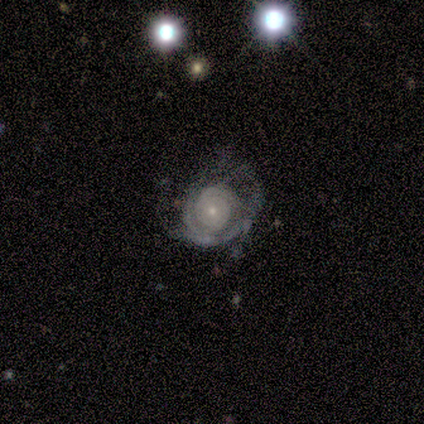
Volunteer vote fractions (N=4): smooth_or_featured: featured or disk (p=0.75) [alt: smooth p=0.25]
disk_edge_on: no (p=1.00)
bar: no (p=0.67) [alt: weak p=0.33]
has_spiral_arms: yes (p=1.00)
spiral_winding: medium (p=0.67) [alt: tight p=0.33]
spiral_arm_count: 1 (p=0.33) [tied with: 2 p=0.33, 3 p=0.33]
bulge_size: small (p=0.67) [alt: moderate p=0.33]
merging: major disturbance (p=0.50) [alt: none p=0.25]